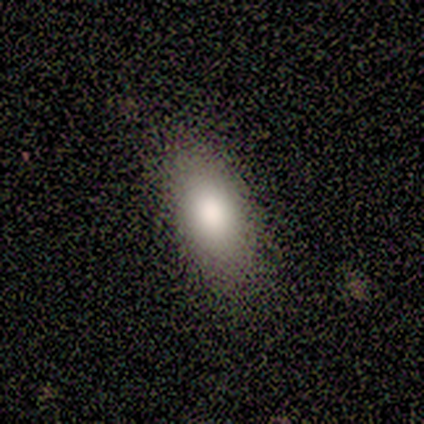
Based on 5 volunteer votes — Volunteers were most divided on "smooth or featured": smooth: 80%, featured or disk: 20%, star or artifact: 0%. More confident: how rounded — in between (100%); merging — none (80%).